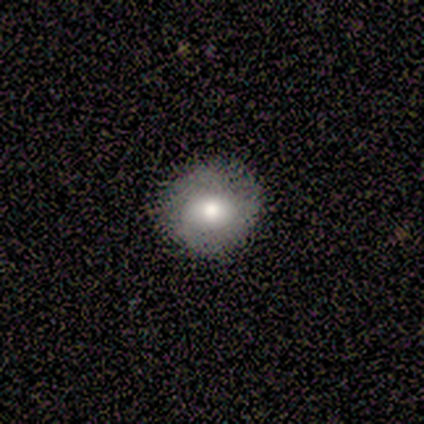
smooth 80%, featured or disk 20%, star or artifact 0%. Down the decision tree: how rounded — round (100%); merging — none (100%).